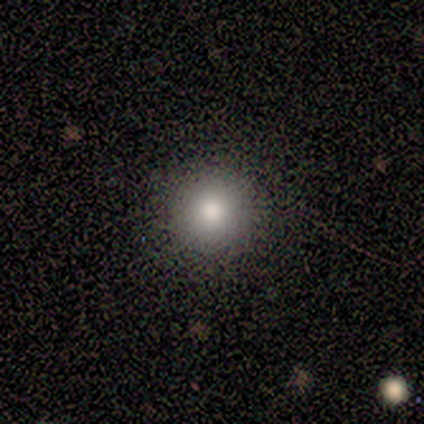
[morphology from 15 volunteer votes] This appears to be a smooth galaxy with no disk features (67%) that is round (100%). Merging: none (92%).